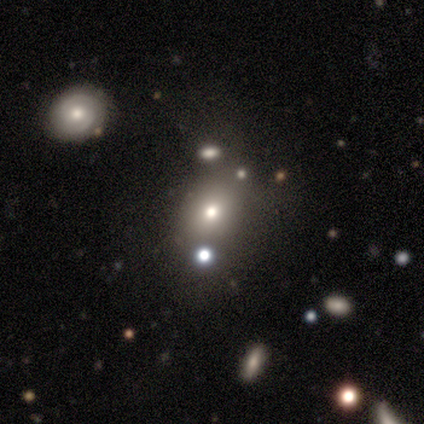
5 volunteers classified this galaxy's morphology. smooth 40% (tied), star or artifact 40% (tied), featured or disk 20%. Down the decision tree: how rounded — round (50%, tied with in between); merging — minor disturbance (67%).